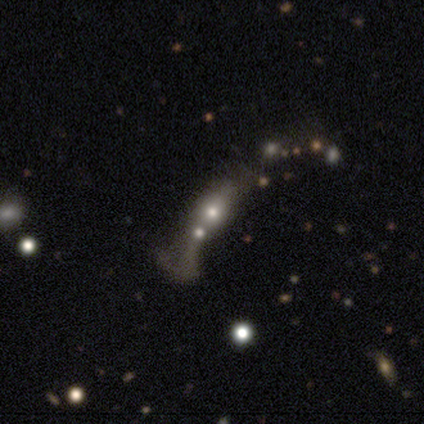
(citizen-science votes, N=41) A smooth galaxy with no disk features (54%) that is in between round and cigar-shaped (55%). Merging: merger (54%).